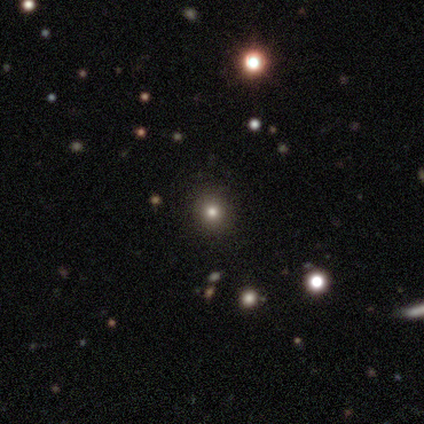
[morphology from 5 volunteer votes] type=smooth (80%); roundness=round (75%); merging=none (100%).